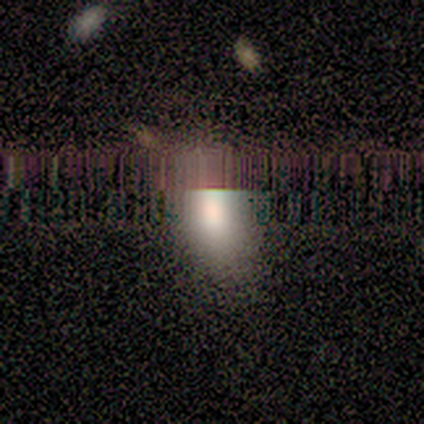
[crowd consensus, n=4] Overall: star or artifact (100%).